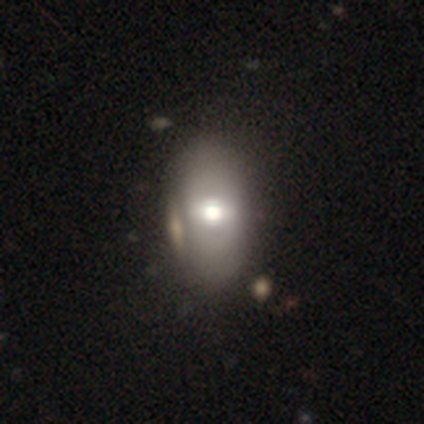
Q: Smooth or featured?
A: smooth (61%); runner-up: featured or disk (39%)
Q: How rounded?
A: in between (100%)
Q: Merging?
A: none (39%); runner-up: merger (16%)